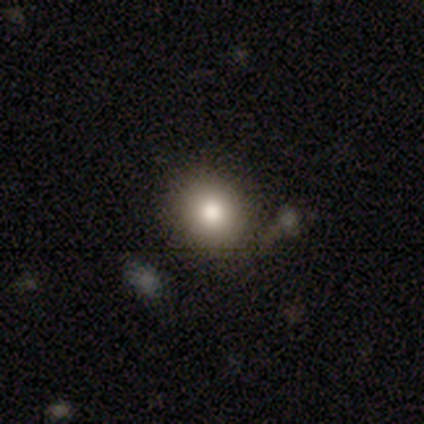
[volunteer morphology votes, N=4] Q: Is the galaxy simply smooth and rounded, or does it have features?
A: smooth — 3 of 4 (75%).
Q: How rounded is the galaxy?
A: round — 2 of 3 (67%).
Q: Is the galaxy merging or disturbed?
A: none — 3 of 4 (75%).